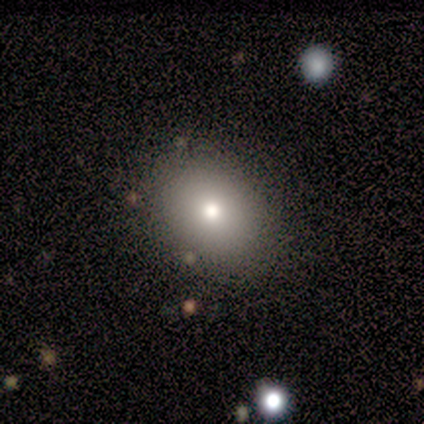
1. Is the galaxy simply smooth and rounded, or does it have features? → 75% smooth, 25% star or artifact, 0% featured or disk.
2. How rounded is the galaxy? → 67% in between, 33% round, 0% cigar-shaped.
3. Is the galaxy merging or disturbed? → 83% none, 17% minor disturbance, 0% major disturbance, 0% merger.